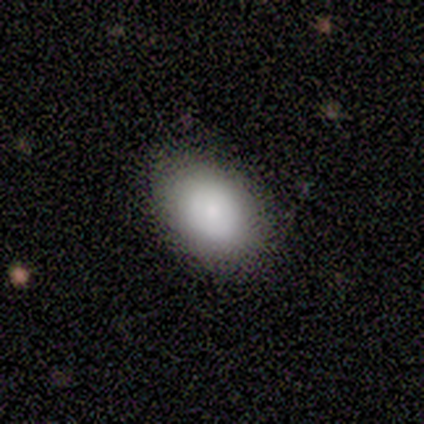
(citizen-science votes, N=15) Smooth or featured?
  - smooth: 73% *
  - featured or disk: 13%
  - star or artifact: 13%
How rounded?
  - in between: 100% *
  - round: 0%
  - cigar-shaped: 0%
Merging?
  - none: 85% *
  - minor disturbance: 8%
  - major disturbance: 8%
  - merger: 0%